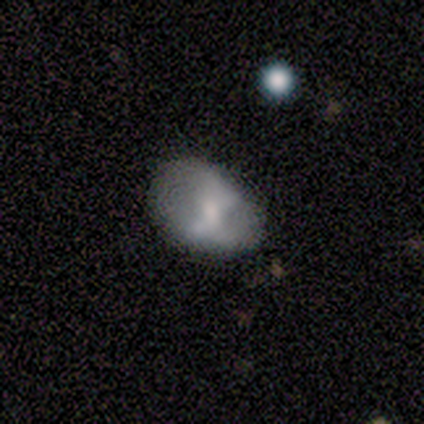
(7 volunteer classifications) Overall: featured or disk (71%). Edge-on disk: no (100%). Bar: no (60%; strong 20%). Spiral arms: no (80%). Bulge size: moderate (40%, tied with none). Merging: minor disturbance (50%; none 33%).